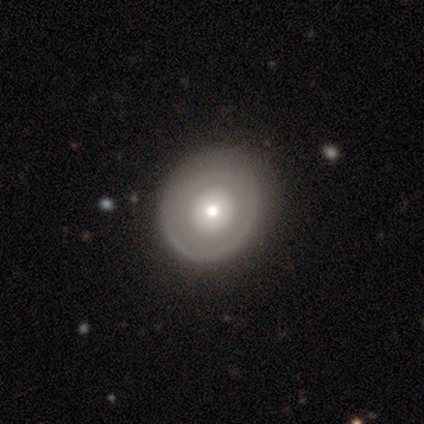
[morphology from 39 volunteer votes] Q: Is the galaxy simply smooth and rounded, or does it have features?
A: featured or disk — 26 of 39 (67%).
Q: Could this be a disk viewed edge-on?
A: no — 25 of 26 (96%).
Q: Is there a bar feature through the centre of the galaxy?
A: no — 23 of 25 (92%).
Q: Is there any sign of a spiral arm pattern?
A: no — 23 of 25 (92%).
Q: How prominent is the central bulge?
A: moderate — 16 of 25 (64%).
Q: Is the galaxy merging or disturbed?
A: none — 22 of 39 (56%).